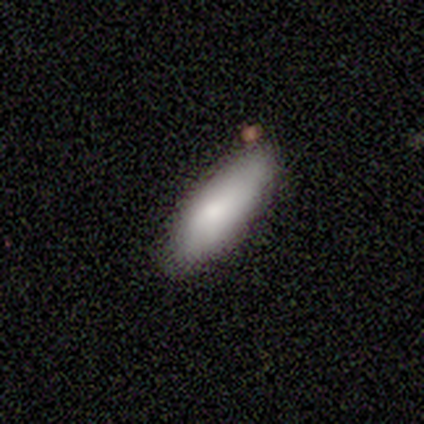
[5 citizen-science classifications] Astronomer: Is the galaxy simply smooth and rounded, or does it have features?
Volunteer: smooth — 60% (runner-up: featured or disk, 40%).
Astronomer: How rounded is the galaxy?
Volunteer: cigar-shaped — 67%.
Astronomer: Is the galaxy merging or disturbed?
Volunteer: none — 80%.